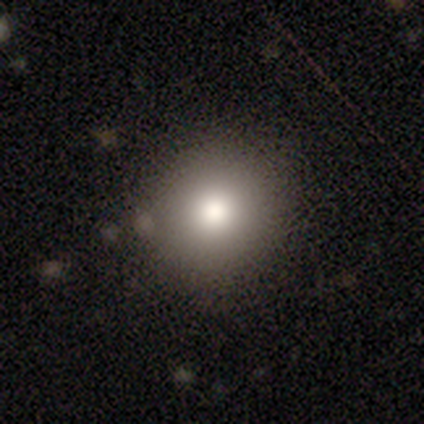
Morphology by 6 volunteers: This appears to be a smooth galaxy with no disk features (50%) that is round (67%). Merging: none (80%).